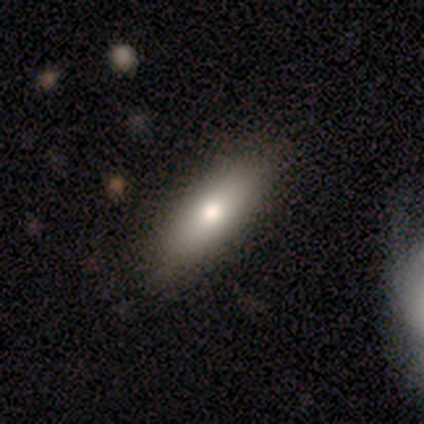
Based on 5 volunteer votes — Volunteers were most divided on "smooth or featured": smooth: 80%, featured or disk: 20%, star or artifact: 0%. More confident: how rounded — in between (100%); merging — none (100%).